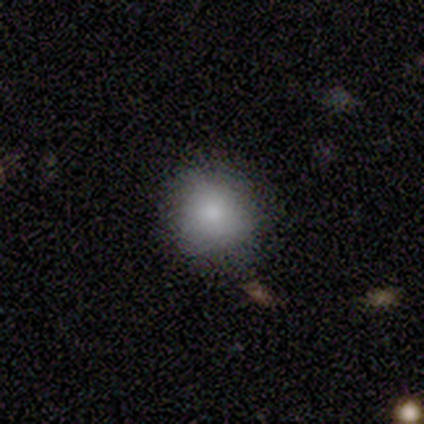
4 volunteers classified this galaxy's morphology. Q: Smooth or featured?
A: smooth (100%)
Q: How rounded?
A: round (100%)
Q: Merging?
A: none (75%); runner-up: minor disturbance (25%)